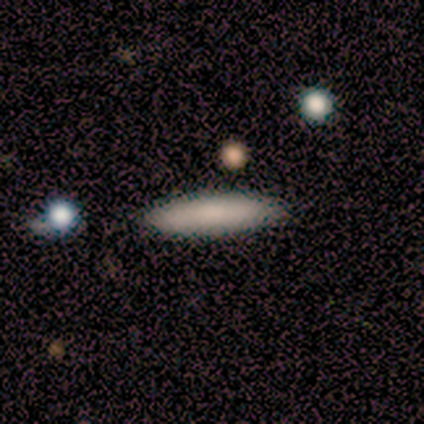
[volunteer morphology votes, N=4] smooth_or_featured: smooth (p=0.75) [alt: star or artifact p=0.25]
how_rounded: cigar-shaped (p=1.00)
merging: none (p=1.00)